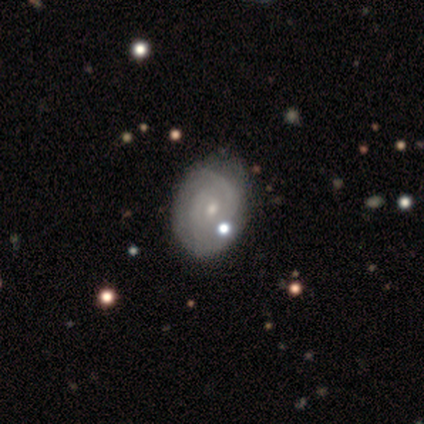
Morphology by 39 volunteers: A featured or disk galaxy (85%) with no bar (62%), 2 (64%) tight (68%) spiral arms (88%) and a small central bulge (78%).

Vote fractions:
- Smooth or featured? featured or disk: 85% / smooth: 13% / star or artifact: 3%
- Edge-on disk? no: 97% / yes: 3%
- Bar? no: 62% / weak: 38% / strong: 0%
- Spiral arms? yes: 88% / no: 12%
- Spiral winding? tight: 68% / medium: 29% / loose: 4%
- Spiral arm count? 2: 64% / can't tell: 25% / 1: 7% / 4: 4% / 3: 0% / more than 4: 0%
- Bulge size? small: 78% / moderate: 19% / none: 3% / dominant: 0% / large: 0%
- Merging? none: 79% / minor disturbance: 11% / major disturbance: 11% / merger: 0%